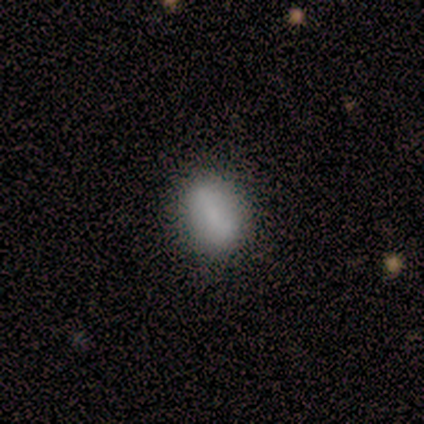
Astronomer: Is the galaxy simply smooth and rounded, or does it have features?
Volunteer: smooth — 80%.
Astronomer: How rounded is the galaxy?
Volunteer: round — 75%.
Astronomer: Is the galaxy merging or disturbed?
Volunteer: none — 100%.